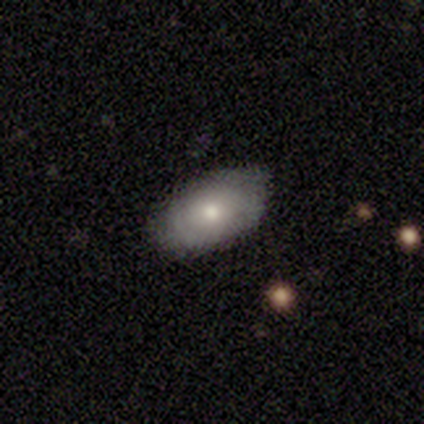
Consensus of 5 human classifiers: A smooth galaxy with no disk features (80%) that is in between round and cigar-shaped (100%).

Vote fractions:
- Smooth or featured? smooth: 80% / featured or disk: 20% / star or artifact: 0%
- How rounded? in between: 100% / round: 0% / cigar-shaped: 0%
- Merging? none: 100% / minor disturbance: 0% / major disturbance: 0% / merger: 0%